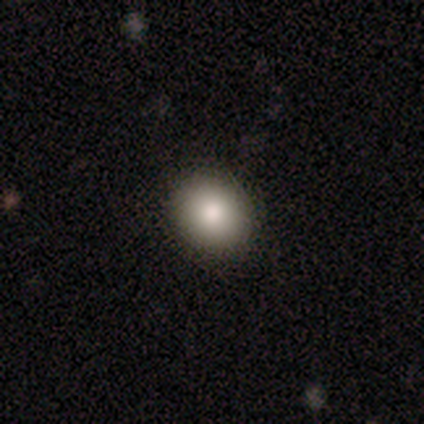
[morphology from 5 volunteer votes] Smooth or featured? 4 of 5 (80%) said smooth. How rounded? 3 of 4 (75%) said in between. Merging? 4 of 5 (80%) said none.